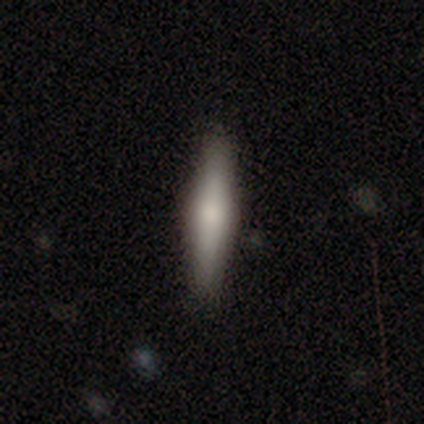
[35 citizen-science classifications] A smooth galaxy with no disk features (63%) that is cigar-shaped (95%). Merging: none (77%).